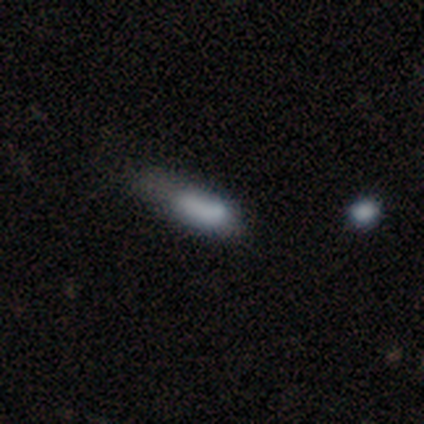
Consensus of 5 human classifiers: A smooth galaxy with no disk features (80%) that is in between round and cigar-shaped (100%).

Vote fractions:
- Smooth or featured? smooth: 80% / star or artifact: 20% / featured or disk: 0%
- How rounded? in between: 100% / round: 0% / cigar-shaped: 0%
- Merging? none: 50% / minor disturbance: 25% / major disturbance: 25% / merger: 0%